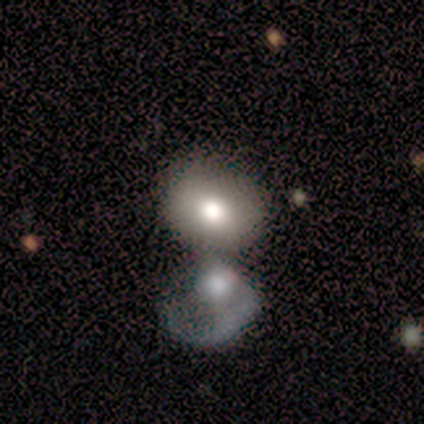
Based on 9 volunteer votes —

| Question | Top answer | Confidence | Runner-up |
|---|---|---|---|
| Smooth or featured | smooth | 78% | featured or disk (11%) |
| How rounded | round | 71% | in between (29%) |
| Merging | merger | 62% | none (25%) |